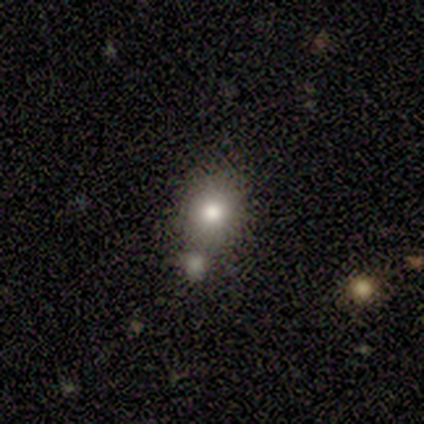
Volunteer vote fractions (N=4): Volunteers were most divided on "merging" (3-way tie): none: 33%, minor disturbance: 33%, major disturbance: 33%, merger: 0%. More confident: how rounded — round (100%); smooth or featured — smooth (75%).